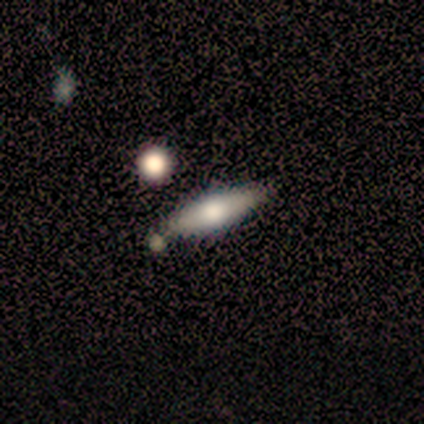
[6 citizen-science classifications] A smooth galaxy with no disk features (67%) that is cigar-shaped (75%).

Vote fractions:
- Smooth or featured? smooth: 67% / featured or disk: 33% / star or artifact: 0%
- How rounded? cigar-shaped: 75% / in between: 25% / round: 0%
- Merging? none: 83% / minor disturbance: 17% / major disturbance: 0% / merger: 0%